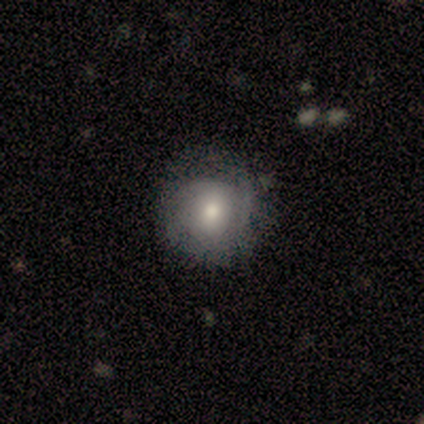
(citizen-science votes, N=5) Overall: smooth (60%; featured or disk 40%). How rounded: round (67%; in between 33%). Merging: none (60%; minor disturbance 40%).